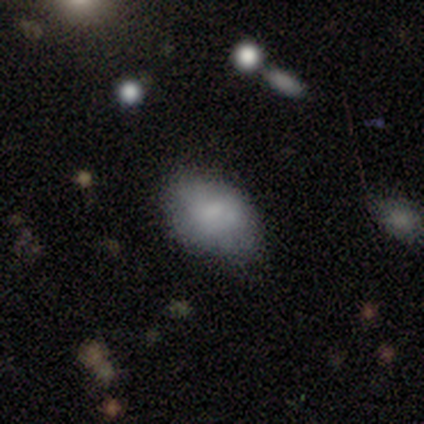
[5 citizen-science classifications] Smooth or featured: smooth — 80% (featured or disk — 20%)
How rounded: in between — 75% (round — 25%)
Merging: none — 40% (tied with minor disturbance — 40%)